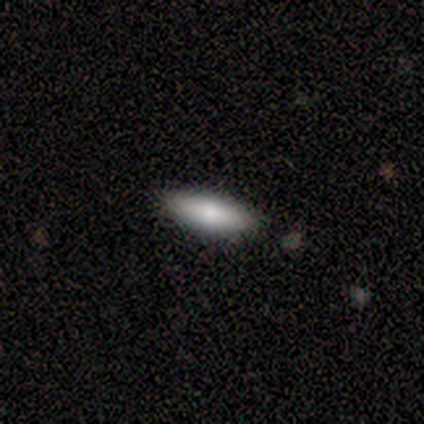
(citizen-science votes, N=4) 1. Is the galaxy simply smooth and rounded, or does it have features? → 100% smooth, 0% featured or disk, 0% star or artifact.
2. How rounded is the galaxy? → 50% in between (tied), 50% cigar-shaped (tied), 0% round.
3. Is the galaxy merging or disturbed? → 100% none, 0% minor disturbance, 0% major disturbance, 0% merger.